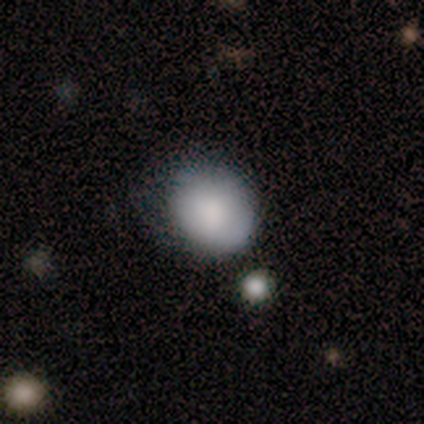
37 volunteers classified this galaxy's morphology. Smooth or featured: smooth — 84% (star or artifact — 11%)
How rounded: round — 61% (in between — 39%)
Merging: none — 48% (minor disturbance — 42%)